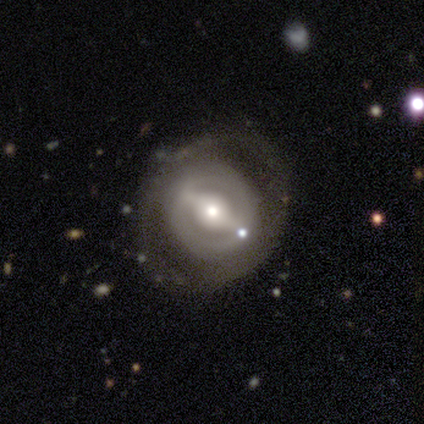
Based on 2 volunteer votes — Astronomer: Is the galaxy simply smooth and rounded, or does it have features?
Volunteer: featured or disk — 100%.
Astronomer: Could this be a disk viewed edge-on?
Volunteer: no — 100%.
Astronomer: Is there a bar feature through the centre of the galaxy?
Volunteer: strong — 100%.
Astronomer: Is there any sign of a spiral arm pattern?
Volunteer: no — 100%.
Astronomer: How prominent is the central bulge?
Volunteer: moderate — 50%, tied with small at 50%.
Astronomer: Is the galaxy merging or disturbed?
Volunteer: none — 100%.